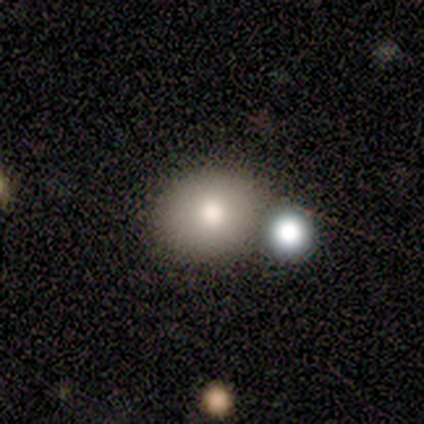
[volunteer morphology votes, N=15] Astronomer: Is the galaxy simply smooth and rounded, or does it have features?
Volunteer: smooth — 73%.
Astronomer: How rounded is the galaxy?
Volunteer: round — 55% (runner-up: in between, 45%).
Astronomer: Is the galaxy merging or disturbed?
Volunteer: none — 46% (runner-up: merger, 31%).